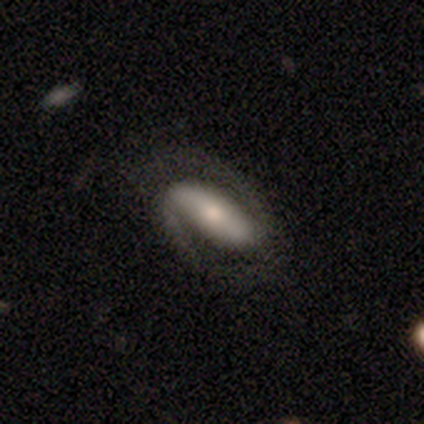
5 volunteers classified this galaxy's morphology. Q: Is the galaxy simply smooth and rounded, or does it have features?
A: featured or disk — 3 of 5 (60%).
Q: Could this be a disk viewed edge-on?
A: no — 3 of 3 (100%).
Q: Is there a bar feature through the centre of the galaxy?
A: strong — 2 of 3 (67%).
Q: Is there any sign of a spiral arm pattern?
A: yes — 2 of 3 (67%).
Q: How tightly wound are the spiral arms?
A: loose — 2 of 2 (100%).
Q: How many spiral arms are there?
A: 2 — 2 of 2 (100%).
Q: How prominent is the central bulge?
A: moderate — 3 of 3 (100%).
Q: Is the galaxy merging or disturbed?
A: none — 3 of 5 (60%).